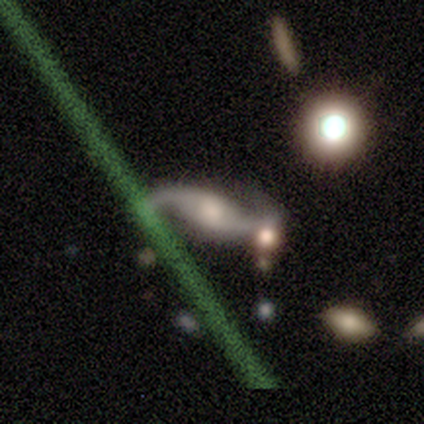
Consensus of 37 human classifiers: smooth_or_featured: featured or disk (p=0.95) [alt: star or artifact p=0.05]
disk_edge_on: no (p=0.89) [alt: yes p=0.11]
bar: weak (p=0.52) [alt: no p=0.42]
has_spiral_arms: yes (p=0.97) [alt: no p=0.03]
spiral_winding: loose (p=0.80) [alt: medium p=0.17]
spiral_arm_count: 2 (p=1.00)
bulge_size: large (p=0.32) [tied with: moderate p=0.32]
merging: none (p=0.66) [alt: minor disturbance p=0.20]